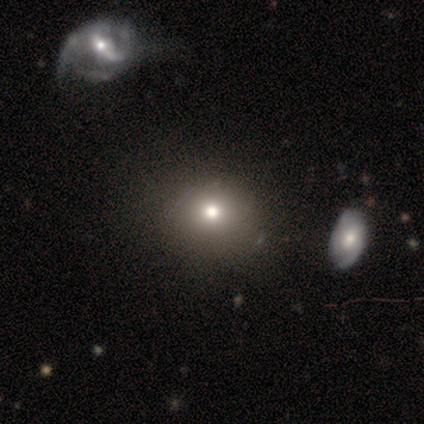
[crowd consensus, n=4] Smooth or featured?
  - smooth: 75% *
  - star or artifact: 25%
  - featured or disk: 0%
How rounded?
  - round: 67% *
  - in between: 33%
  - cigar-shaped: 0%
Merging?
  - none: 100% *
  - minor disturbance: 0%
  - major disturbance: 0%
  - merger: 0%